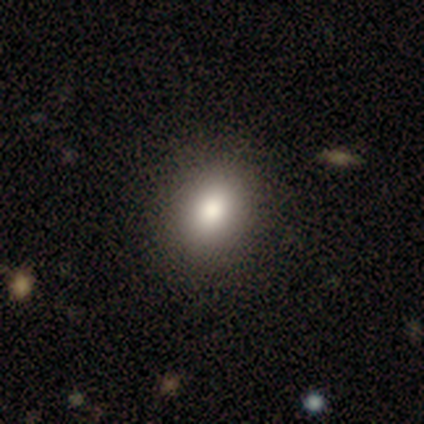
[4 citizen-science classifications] Smooth or featured: smooth — 75% (star or artifact — 25%)
How rounded: in between — 100%
Merging: none — 100%